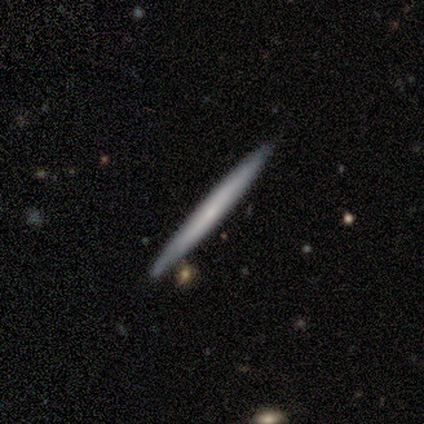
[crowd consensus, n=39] Smooth or featured? 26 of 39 (67%) said featured or disk. Edge-on disk? 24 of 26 (92%) said yes. Edge-on bulge? 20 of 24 (83%) said none. Merging? 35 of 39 (90%) said none.